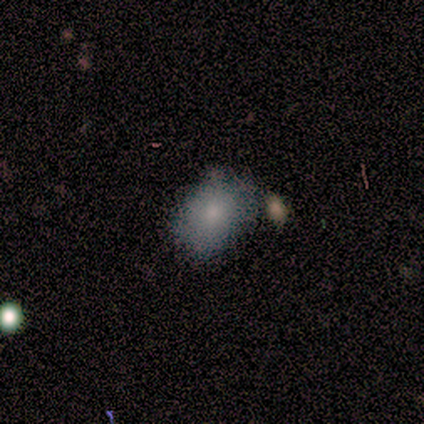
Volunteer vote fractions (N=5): Morphology: type=smooth (100%); roundness=in between (100%); merging=none (60%).